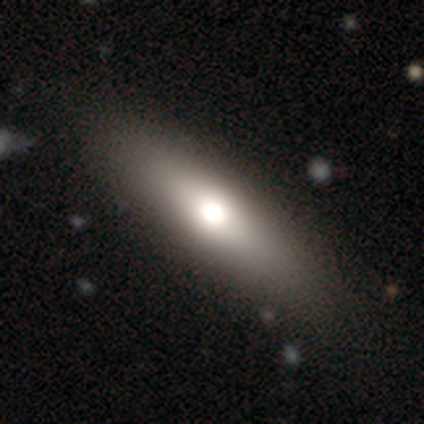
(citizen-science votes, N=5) Smooth or featured? 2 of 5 (40%, tied with featured or disk) said smooth. How rounded? 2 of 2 (100%) said cigar-shaped. Merging? 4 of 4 (100%) said none.